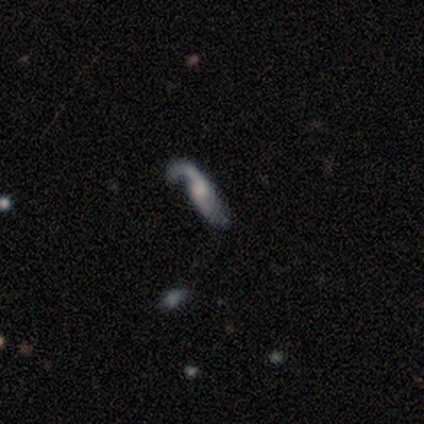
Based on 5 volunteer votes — Volunteers were most divided on "spiral arm count" (2-way tie): 1: 50%, 2: 50%, 3: 0%, 4: 0%, more than 4: 0%, can't tell: 0%. More confident: edge-on disk — no (100%); spiral arms — yes (100%); spiral winding — loose (100%); smooth or featured — featured or disk (80%); bar — no (75%); bulge size — small (75%); merging — minor disturbance (75%).